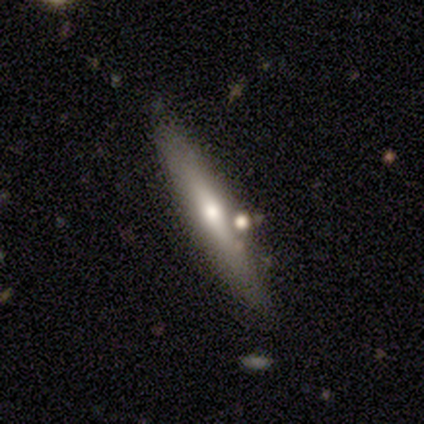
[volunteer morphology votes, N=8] Smooth or featured? smooth (50%, tied with featured or disk)
How rounded? cigar-shaped (100%)
Merging? none (62%)